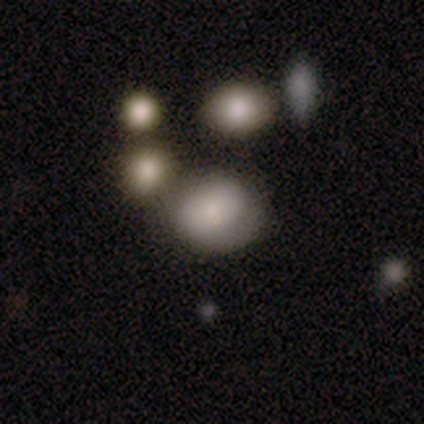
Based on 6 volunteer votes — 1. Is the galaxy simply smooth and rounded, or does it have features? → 50% smooth, 33% featured or disk, 17% star or artifact.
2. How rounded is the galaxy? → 100% round, 0% in between, 0% cigar-shaped.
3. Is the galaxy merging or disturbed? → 40% none, 20% minor disturbance, 20% major disturbance, 20% merger.